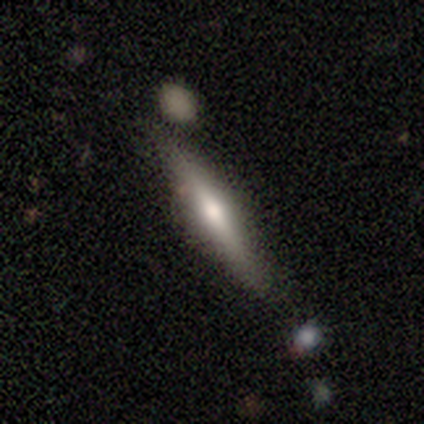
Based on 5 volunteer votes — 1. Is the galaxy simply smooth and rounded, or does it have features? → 60% featured or disk, 40% smooth, 0% star or artifact.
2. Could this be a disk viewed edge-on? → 67% yes, 33% no.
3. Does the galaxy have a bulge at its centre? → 100% rounded, 0% boxy, 0% none.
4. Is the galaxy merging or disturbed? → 100% none, 0% minor disturbance, 0% major disturbance, 0% merger.